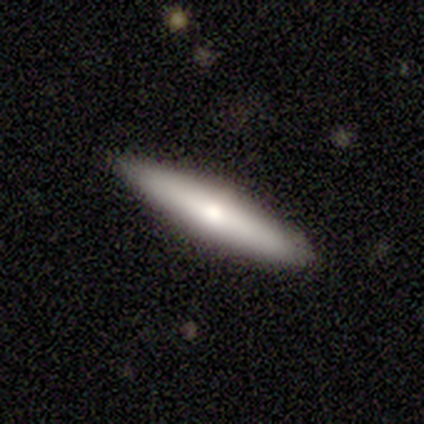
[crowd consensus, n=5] Q: Smooth or featured?
A: smooth (80%); runner-up: featured or disk (20%)
Q: How rounded?
A: cigar-shaped (75%); runner-up: in between (25%)
Q: Merging?
A: none (100%)